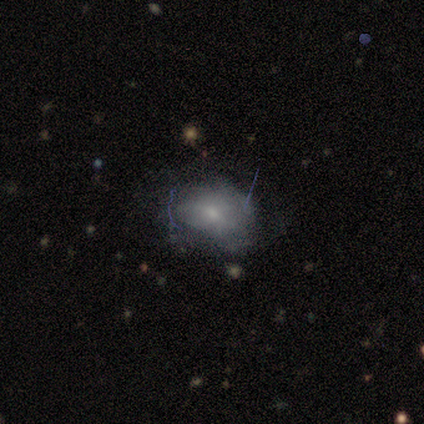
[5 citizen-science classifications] smooth-or-featured: smooth: 60% | featured or disk: 40% | star or artifact: 0%
  how-rounded: in between: 100% | round: 0% | cigar-shaped: 0%
  merging: none: 40% (tied) | minor disturbance: 40% (tied) | major disturbance: 20% | merger: 0%